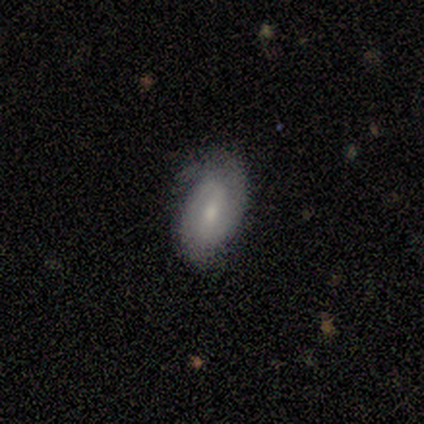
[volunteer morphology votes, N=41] Overall: featured or disk (68%). Edge-on disk: no (89%). Bar: weak (48%; strong 32%). Spiral arms: yes (92%). Spiral arm count: 2 (74%). Spiral winding: tight (52%; medium 39%). Bulge size: small (64%; moderate 32%). Merging: none (61%; minor disturbance 37%).